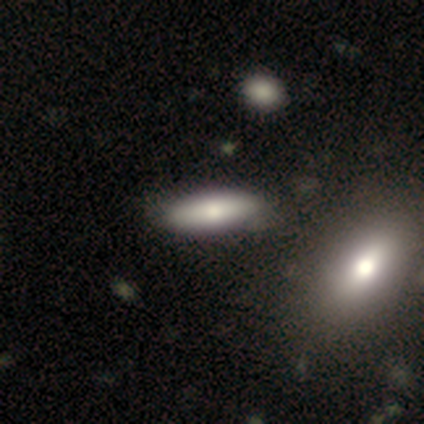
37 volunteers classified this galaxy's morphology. Volunteers were most divided on "how rounded" (2-way tie): in between: 50%, cigar-shaped: 50%, round: 0%. More confident: smooth or featured — smooth (76%); merging — none (62%).